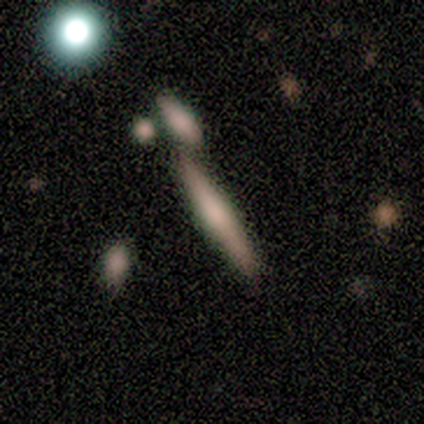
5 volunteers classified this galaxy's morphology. Q: Smooth or featured?
A: smooth (60%); runner-up: featured or disk (40%)
Q: How rounded?
A: cigar-shaped (100%)
Q: Merging?
A: none (40%); tied with: merger (40%)